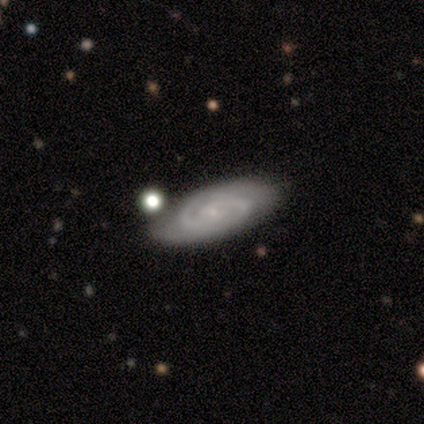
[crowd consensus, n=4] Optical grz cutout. It shows a featured or disk galaxy (100%) viewed edge-on (50%, tied with no) with a rounded central bulge (100%). Merging: none (50%).